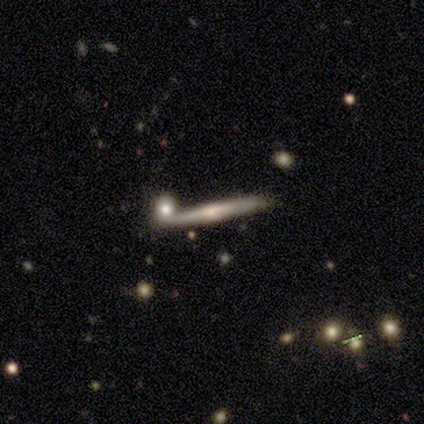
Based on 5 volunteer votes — Volunteers were most divided on "edge-on bulge": rounded: 50%, boxy: 25%, none: 25%. More confident: edge-on disk — yes (100%); smooth or featured — featured or disk (80%); merging — none (80%).